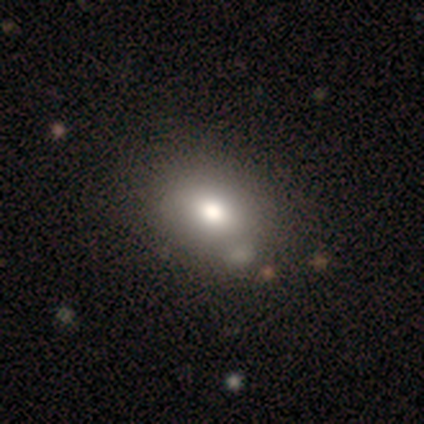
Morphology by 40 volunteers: Overall: smooth (85%). How rounded: in between (68%; round 32%). Merging: none (59%).